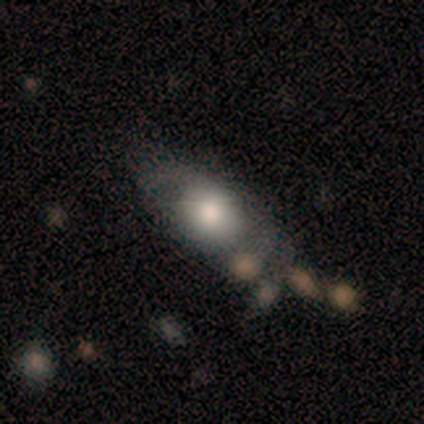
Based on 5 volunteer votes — Q: Smooth or featured?
A: smooth (60%); runner-up: featured or disk (20%)
Q: How rounded?
A: in between (67%); runner-up: round (33%)
Q: Merging?
A: major disturbance (50%); runner-up: none (25%)